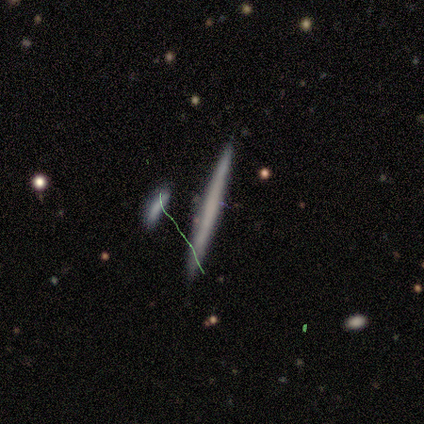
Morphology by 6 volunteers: type=smooth (67%); roundness=cigar-shaped (75%); merging=none (83%).